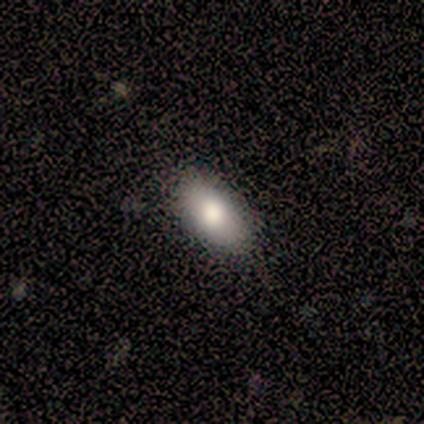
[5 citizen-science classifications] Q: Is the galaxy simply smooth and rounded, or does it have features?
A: smooth — 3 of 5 (60%).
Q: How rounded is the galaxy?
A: in between — 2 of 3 (67%).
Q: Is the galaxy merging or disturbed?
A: none — 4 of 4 (100%).